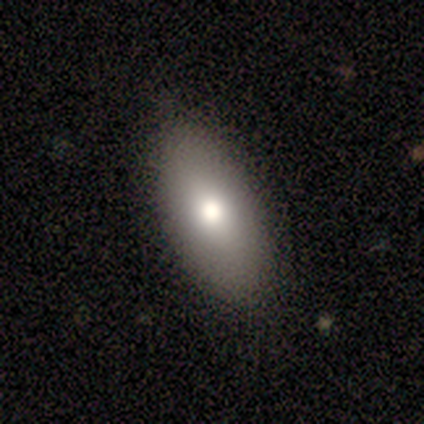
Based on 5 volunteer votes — A smooth galaxy with no disk features (80%) that is in between round and cigar-shaped (75%).

Vote fractions:
- Smooth or featured? smooth: 80% / featured or disk: 20% / star or artifact: 0%
- How rounded? in between: 75% / cigar-shaped: 25% / round: 0%
- Merging? none: 100% / minor disturbance: 0% / major disturbance: 0% / merger: 0%